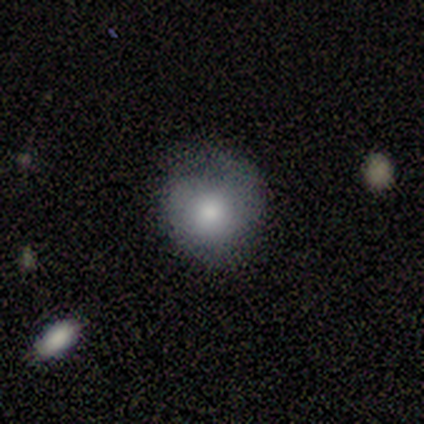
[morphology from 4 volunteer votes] smooth 50% (tied), featured or disk 50% (tied), star or artifact 0%. Down the decision tree: how rounded — round (50%, tied with in between); merging — none (75%).